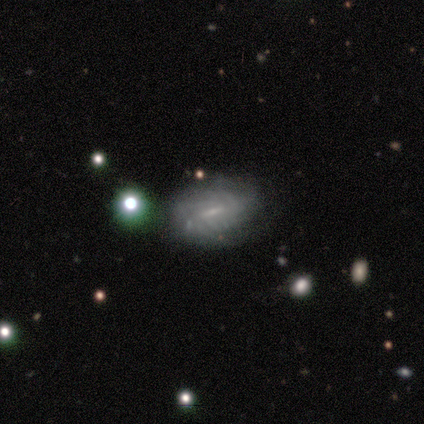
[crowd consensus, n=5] Smooth or featured?
  - featured or disk: 100% *
  - smooth: 0%
  - star or artifact: 0%
Edge-on disk?
  - no: 80% *
  - yes: 20%
Bar?
  - weak: 75% *
  - strong: 25%
  - no: 0%
Spiral arms?
  - yes: 50% * (tied)
  - no: 50% * (tied)
Spiral winding?
  - tight: 50% * (tied)
  - medium: 50% * (tied)
  - loose: 0%
Spiral arm count?
  - 3: 50% * (tied)
  - can't tell: 50% * (tied)
  - 1: 0%
  - 2: 0%
  - 4: 0%
  - more than 4: 0%
Bulge size?
  - small: 75% *
  - none: 25%
  - dominant: 0%
  - large: 0%
  - moderate: 0%
Merging?
  - none: 100% *
  - minor disturbance: 0%
  - major disturbance: 0%
  - merger: 0%